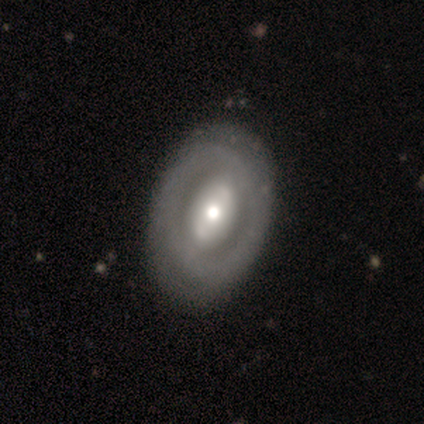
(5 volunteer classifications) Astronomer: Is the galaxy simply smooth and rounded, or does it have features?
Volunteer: smooth — 80%.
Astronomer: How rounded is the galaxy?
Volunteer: in between — 100%.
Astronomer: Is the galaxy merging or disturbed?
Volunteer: none — 60% (runner-up: minor disturbance, 40%).